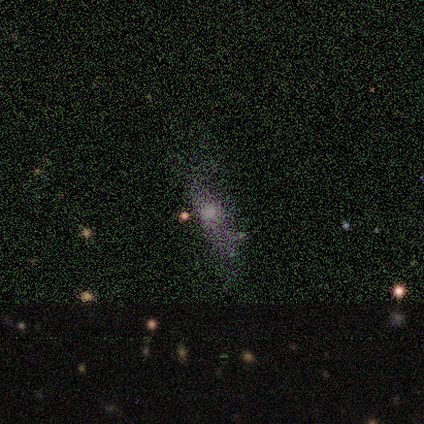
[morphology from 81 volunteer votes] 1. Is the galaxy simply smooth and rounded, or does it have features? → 38% star or artifact, 35% smooth, 27% featured or disk.